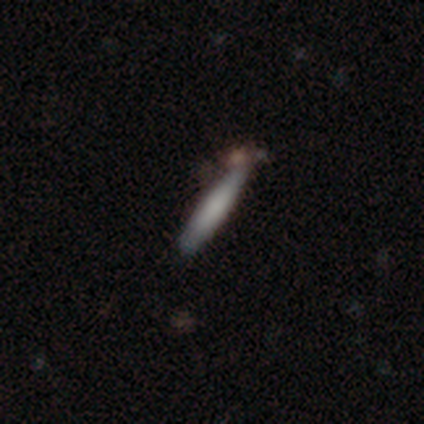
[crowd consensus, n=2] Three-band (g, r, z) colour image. It shows a smooth galaxy with no disk features (100%) that is cigar-shaped (100%). Merging: none (50%, tied with merger).